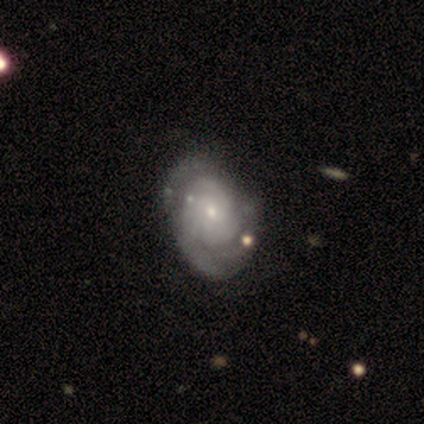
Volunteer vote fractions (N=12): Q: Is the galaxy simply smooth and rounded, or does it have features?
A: featured or disk — 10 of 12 (83%).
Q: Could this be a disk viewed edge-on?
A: no — 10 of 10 (100%).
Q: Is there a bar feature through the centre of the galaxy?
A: no — 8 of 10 (80%).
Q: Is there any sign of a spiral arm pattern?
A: yes — 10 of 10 (100%).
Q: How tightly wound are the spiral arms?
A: medium — 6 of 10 (60%).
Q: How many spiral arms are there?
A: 3 — 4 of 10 (40%).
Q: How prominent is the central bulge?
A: small — 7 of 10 (70%).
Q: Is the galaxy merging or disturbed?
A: none — 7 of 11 (64%).